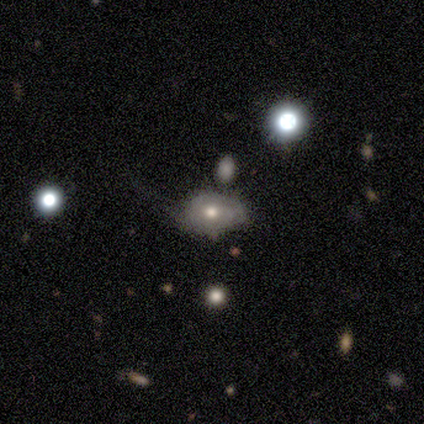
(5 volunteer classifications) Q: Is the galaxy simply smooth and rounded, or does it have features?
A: smooth — 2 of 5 (40%, tied with featured or disk).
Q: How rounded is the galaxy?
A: in between — 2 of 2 (100%).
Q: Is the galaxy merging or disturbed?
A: none — 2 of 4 (50%).